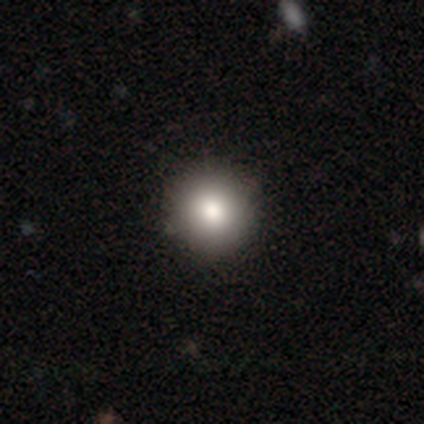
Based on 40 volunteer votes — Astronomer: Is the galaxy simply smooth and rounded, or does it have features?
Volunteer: smooth — 78%.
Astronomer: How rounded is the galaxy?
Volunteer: round — 97%.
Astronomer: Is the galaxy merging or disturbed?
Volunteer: none — 94%.